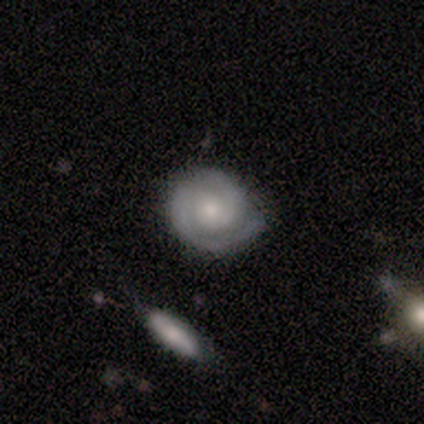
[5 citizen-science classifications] Smooth or featured: featured or disk — 80% (smooth — 20%)
Edge-on disk: no — 100%
Bar: no — 75% (weak — 25%)
Spiral arms: yes — 100%
Spiral winding: tight — 100%
Spiral arm count: 2 — 100%
Bulge size: moderate — 50% (tied with small — 50%)
Merging: none — 80% (minor disturbance — 20%)